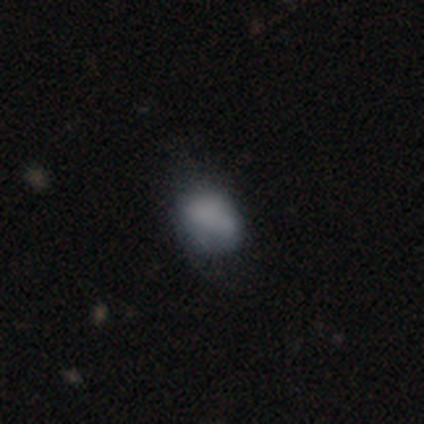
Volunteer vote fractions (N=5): Overall: smooth (60%; featured or disk 20%). How rounded: in between (67%; round 33%). Merging: none (50%, tied with minor disturbance).